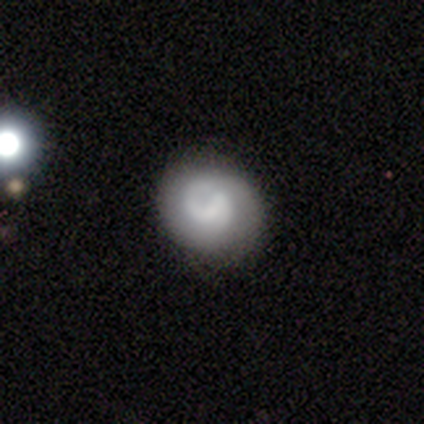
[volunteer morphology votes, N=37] This appears to be a featured or disk galaxy (62%) with no bar (50%), 2 (60%) tight (67%) spiral arms (68%) and no central bulge (45%). Merging: none (67%).